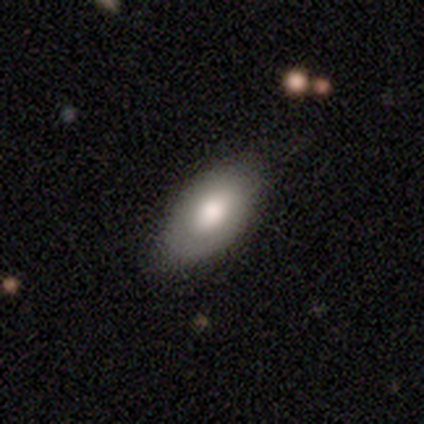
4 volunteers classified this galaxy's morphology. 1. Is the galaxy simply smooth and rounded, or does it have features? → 75% smooth, 25% star or artifact, 0% featured or disk.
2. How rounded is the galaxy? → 100% in between, 0% round, 0% cigar-shaped.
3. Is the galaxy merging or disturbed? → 100% none, 0% minor disturbance, 0% major disturbance, 0% merger.